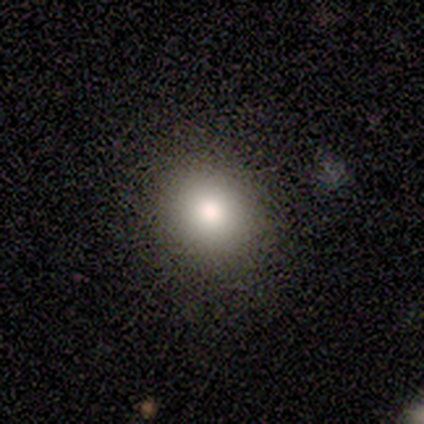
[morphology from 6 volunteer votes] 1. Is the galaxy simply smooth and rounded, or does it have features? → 67% smooth, 17% featured or disk, 17% star or artifact.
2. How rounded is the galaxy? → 100% round, 0% in between, 0% cigar-shaped.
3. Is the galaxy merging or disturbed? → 100% none, 0% minor disturbance, 0% major disturbance, 0% merger.